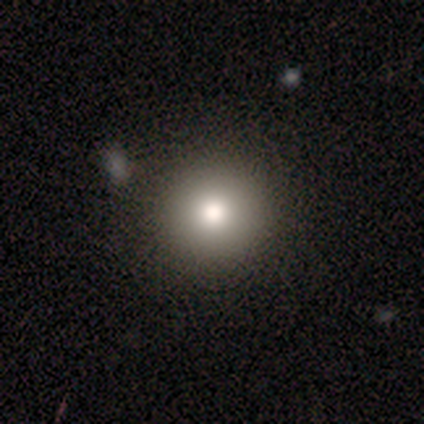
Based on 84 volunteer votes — A smooth galaxy with no disk features (75%) that is round (97%).

Vote fractions:
- Smooth or featured? smooth: 75% / star or artifact: 17% / featured or disk: 8%
- How rounded? round: 97% / in between: 3% / cigar-shaped: 0%
- Merging? none: 90% / minor disturbance: 4% / major disturbance: 3% / merger: 3%